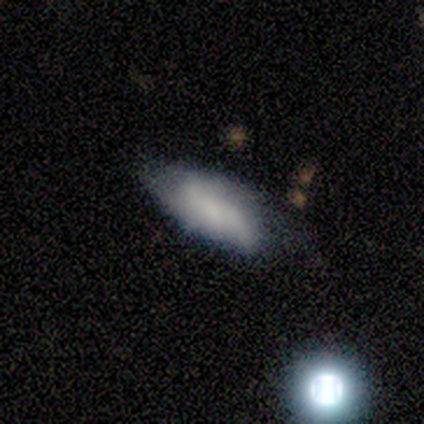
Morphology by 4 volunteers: Volunteers were most divided on "merging": major disturbance: 50%, none: 25%, minor disturbance: 25%, merger: 0%. More confident: smooth or featured — smooth (75%); how rounded — cigar-shaped (67%).